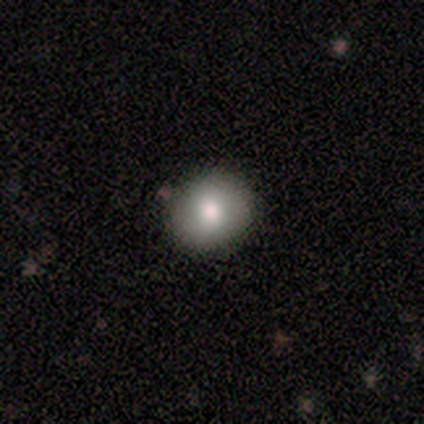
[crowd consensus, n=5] smooth_or_featured: smooth (p=0.60) [alt: star or artifact p=0.40]
how_rounded: round (p=1.00)
merging: none (p=1.00)